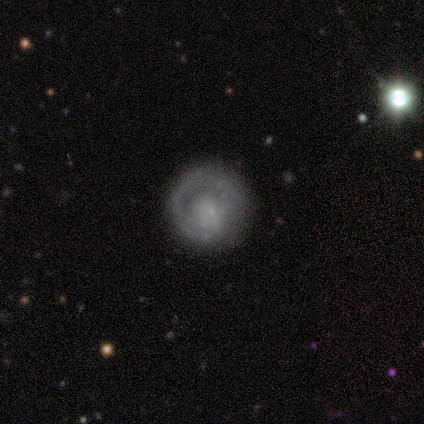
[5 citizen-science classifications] Morphology: type=featured or disk (60%); edge-on=no (100%); bar=no (67%); spiral arms=yes (100%); winding=tight (67%); arm count=1 (100%); bulge=small (100%); merging=none (80%).